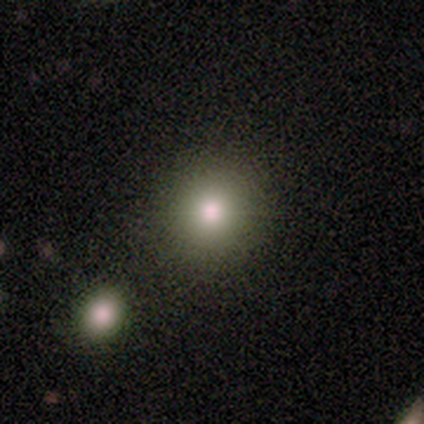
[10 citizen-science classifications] Smooth or featured? 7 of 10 (70%) said smooth. How rounded? 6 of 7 (86%) said round. Merging? 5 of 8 (62%) said none.